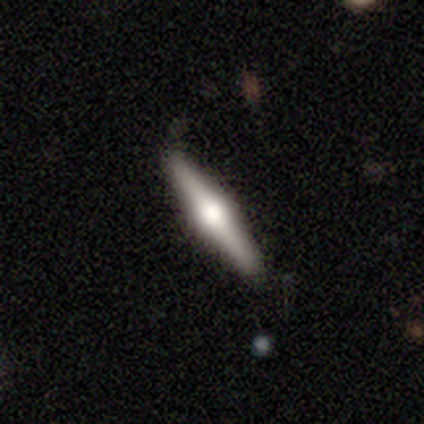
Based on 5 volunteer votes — Morphology: type=featured or disk (60%); edge-on=yes (100%); edge-on bulge=rounded (100%); merging=none (100%).